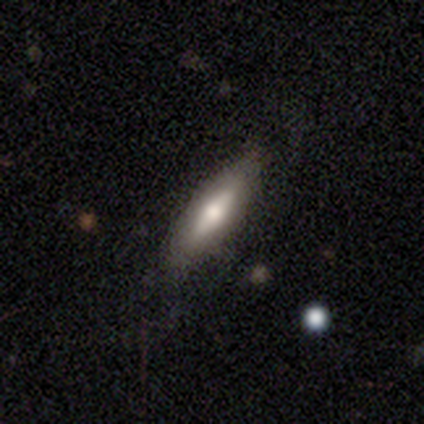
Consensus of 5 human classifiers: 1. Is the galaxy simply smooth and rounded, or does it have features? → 60% featured or disk, 40% smooth, 0% star or artifact.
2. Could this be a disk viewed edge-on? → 67% yes, 33% no.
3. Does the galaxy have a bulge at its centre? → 100% rounded, 0% boxy, 0% none.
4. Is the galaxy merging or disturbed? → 100% none, 0% minor disturbance, 0% major disturbance, 0% merger.